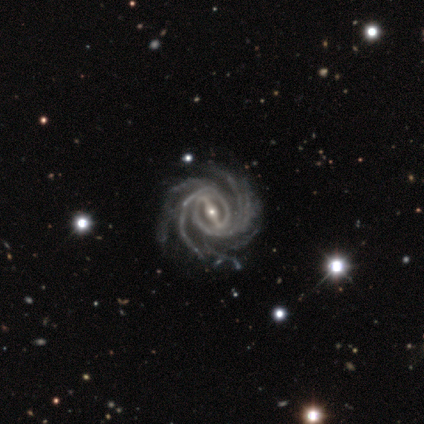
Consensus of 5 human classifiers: Morphology: type=featured or disk (100%); edge-on=no (100%); bar=strong (100%); spiral arms=yes (100%); winding=tight (60%); arm count=more than 4 (60%); bulge=moderate (80%); merging=none (80%).